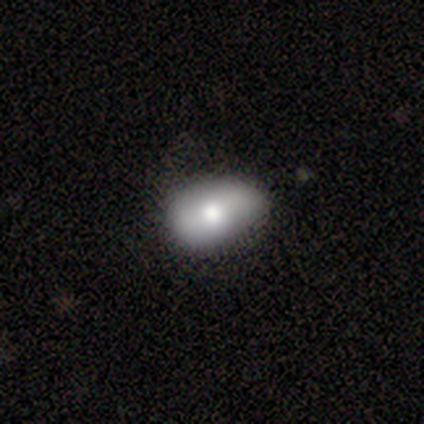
Smooth or featured?
  - smooth: 75% *
  - featured or disk: 25%
  - star or artifact: 0%
How rounded?
  - in between: 100% *
  - round: 0%
  - cigar-shaped: 0%
Merging?
  - minor disturbance: 58% *
  - none: 42%
  - major disturbance: 0%
  - merger: 0%